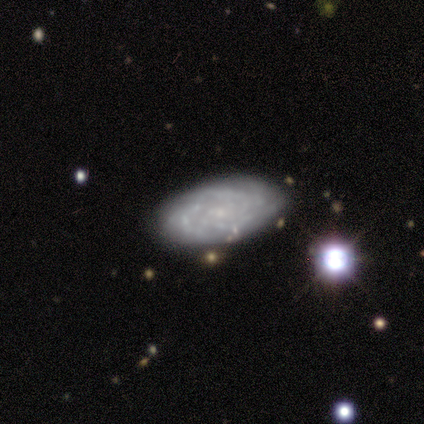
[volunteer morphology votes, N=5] Smooth or featured?
  - featured or disk: 100% *
  - smooth: 0%
  - star or artifact: 0%
Edge-on disk?
  - no: 80% *
  - yes: 20%
Bar?
  - weak: 50% * (tied)
  - no: 50% * (tied)
  - strong: 0%
Spiral arms?
  - yes: 75% *
  - no: 25%
Spiral winding?
  - tight: 67% *
  - loose: 33%
  - medium: 0%
Spiral arm count?
  - 2: 33% * (tied)
  - 3: 33% * (tied)
  - can't tell: 33% * (tied)
  - 1: 0%
  - 4: 0%
  - more than 4: 0%
Bulge size?
  - small: 100% *
  - dominant: 0%
  - large: 0%
  - moderate: 0%
  - none: 0%
Merging?
  - none: 60% *
  - minor disturbance: 20%
  - major disturbance: 20%
  - merger: 0%